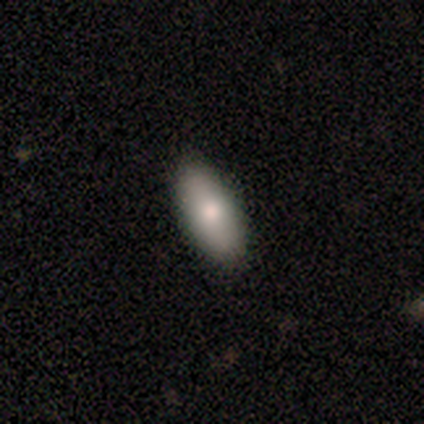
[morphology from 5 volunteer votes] smooth_or_featured: smooth (p=0.80) [alt: featured or disk p=0.20]
how_rounded: in between (p=1.00)
merging: none (p=1.00)